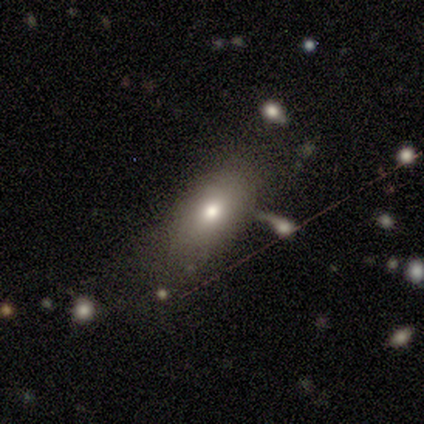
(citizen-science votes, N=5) smooth 80%, star or artifact 20%, featured or disk 0%. Down the decision tree: how rounded — in between (100%); merging — none (75%).